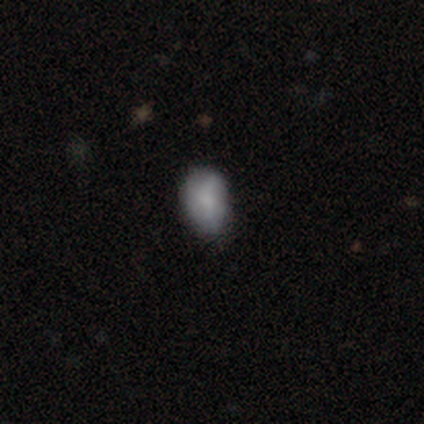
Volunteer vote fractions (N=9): Smooth or featured? 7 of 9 (78%) said smooth. How rounded? 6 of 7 (86%) said in between. Merging? 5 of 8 (62%) said none.